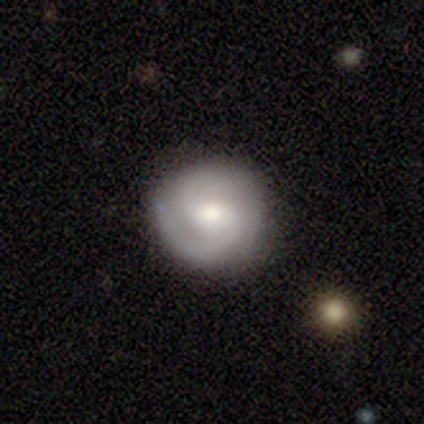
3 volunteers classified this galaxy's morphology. Overall: featured or disk (67%; smooth 33%). Edge-on disk: no (100%). Bar: weak (100%). Spiral arms: yes (100%). Spiral arm count: 1 (50%, tied with 2). Spiral winding: tight (50%, tied with medium). Bulge size: moderate (100%). Merging: none (100%).